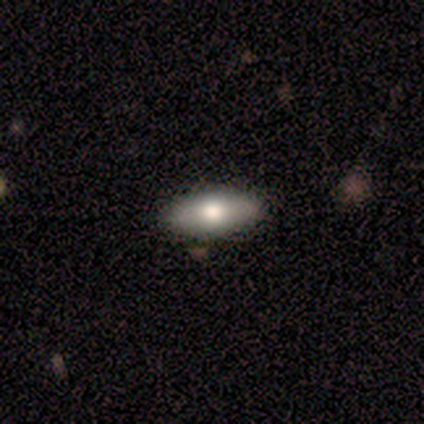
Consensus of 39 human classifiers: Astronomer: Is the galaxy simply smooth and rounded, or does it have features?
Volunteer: smooth — 74%.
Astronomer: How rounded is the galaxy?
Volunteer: in between — 55% (runner-up: cigar-shaped, 41%).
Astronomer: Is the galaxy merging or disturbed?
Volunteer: none — 94%.